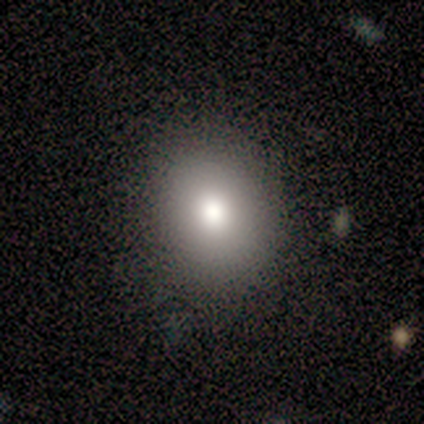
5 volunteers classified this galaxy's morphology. Volunteers were most divided on "how rounded": round: 60%, in between: 40%, cigar-shaped: 0%. More confident: smooth or featured — smooth (100%); merging — none (100%).